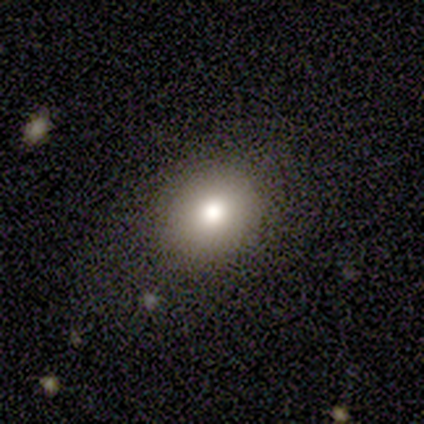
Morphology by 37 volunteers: Q: Smooth or featured?
A: smooth (86%); runner-up: star or artifact (11%)
Q: How rounded?
A: round (56%); runner-up: in between (44%)
Q: Merging?
A: none (76%); runner-up: minor disturbance (15%)